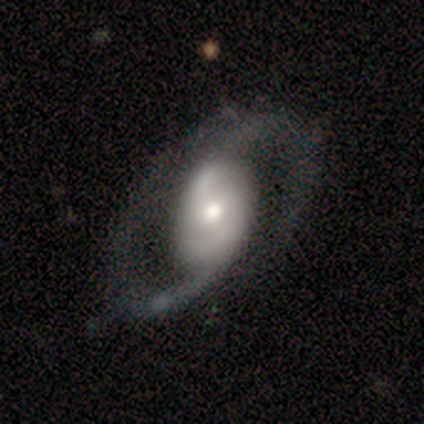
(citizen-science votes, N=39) Q: Smooth or featured?
A: featured or disk (95%); runner-up: smooth (5%)
Q: Edge-on disk?
A: no (100%)
Q: Bar?
A: no (51%); runner-up: weak (38%)
Q: Spiral arms?
A: yes (97%); runner-up: no (3%)
Q: Spiral winding?
A: medium (58%); runner-up: loose (33%)
Q: Spiral arm count?
A: 2 (100%)
Q: Bulge size?
A: moderate (65%); runner-up: large (16%)
Q: Merging?
A: none (49%); runner-up: minor disturbance (13%)